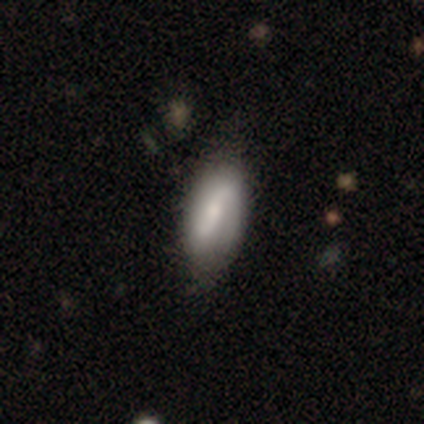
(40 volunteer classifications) A featured or disk galaxy (55%) with a weak bar (44%), 2 (93%) loose (50%) spiral arms (78%) and a moderate central bulge (50%).

Vote fractions:
- Smooth or featured? featured or disk: 55% / smooth: 38% / star or artifact: 8%
- Edge-on disk? no: 82% / yes: 18%
- Bar? weak: 44% / strong: 28% / no: 28%
- Spiral arms? yes: 78% / no: 22%
- Spiral winding? loose: 50% / medium: 43% / tight: 7%
- Spiral arm count? 2: 93% / 1: 7% / 3: 0% / 4: 0% / more than 4: 0% / can't tell: 0%
- Bulge size? moderate: 50% / small: 28% / none: 17% / large: 6% / dominant: 0%
- Merging? none: 38% / minor disturbance: 19% / major disturbance: 3% / merger: 3%